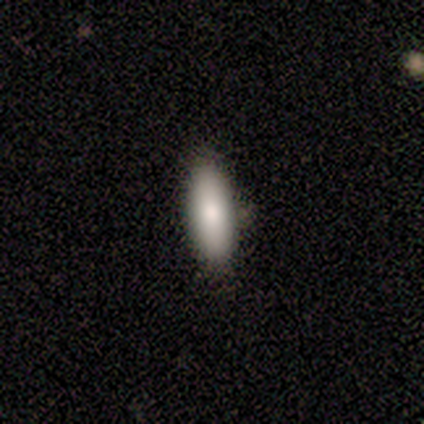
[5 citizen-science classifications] Smooth or featured: smooth — 80% (star or artifact — 20%)
How rounded: in between — 75% (cigar-shaped — 25%)
Merging: none — 100%